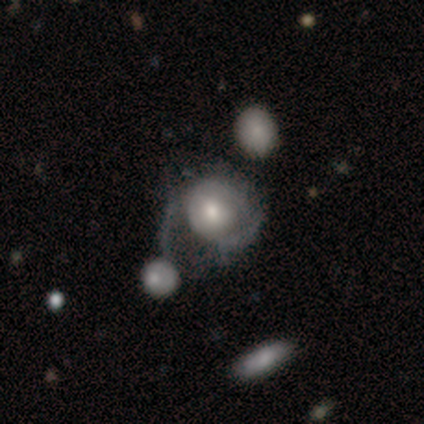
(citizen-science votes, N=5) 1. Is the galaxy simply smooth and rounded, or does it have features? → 40% smooth (tied), 40% featured or disk (tied), 20% star or artifact.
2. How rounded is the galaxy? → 100% round, 0% in between, 0% cigar-shaped.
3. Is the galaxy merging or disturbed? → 50% major disturbance (tied), 50% merger (tied), 0% none, 0% minor disturbance.